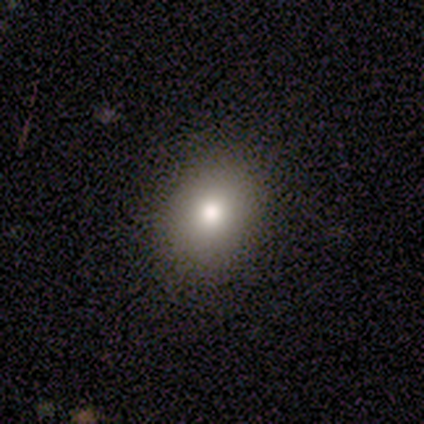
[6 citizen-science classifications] A smooth galaxy with no disk features (100%) that is round (50%, tied with in between).

Vote fractions:
- Smooth or featured? smooth: 100% / featured or disk: 0% / star or artifact: 0%
- How rounded? round: 50% (tied) / in between: 50% (tied) / cigar-shaped: 0%
- Merging? none: 100% / minor disturbance: 0% / major disturbance: 0% / merger: 0%